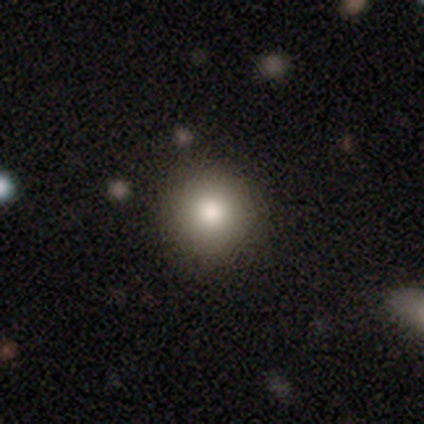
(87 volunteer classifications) A smooth galaxy with no disk features (79%) that is round (97%). Merging: none (94%).